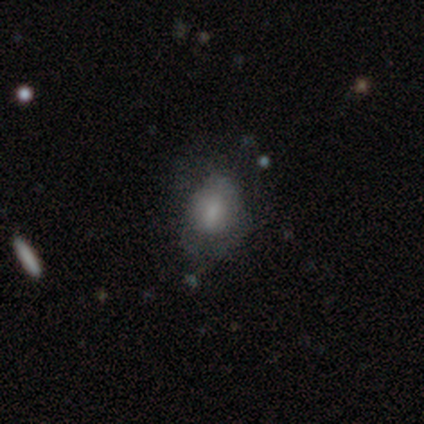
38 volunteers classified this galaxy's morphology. smooth 68%, featured or disk 24%, star or artifact 8%. Down the decision tree: how rounded — in between (58%); merging — none (49%).